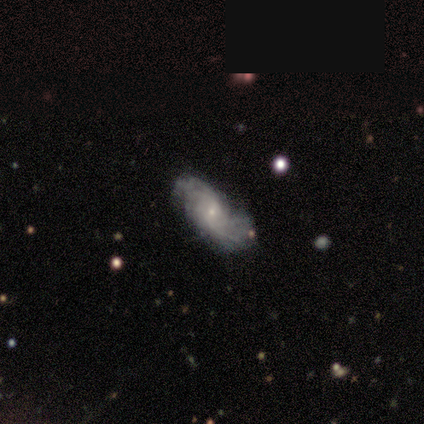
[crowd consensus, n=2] smooth-or-featured: smooth: 50% (tied) | featured or disk: 50% (tied) | star or artifact: 0%
  how-rounded: in between: 100% | round: 0% | cigar-shaped: 0%
  merging: none: 50% (tied) | minor disturbance: 50% (tied) | major disturbance: 0% | merger: 0%